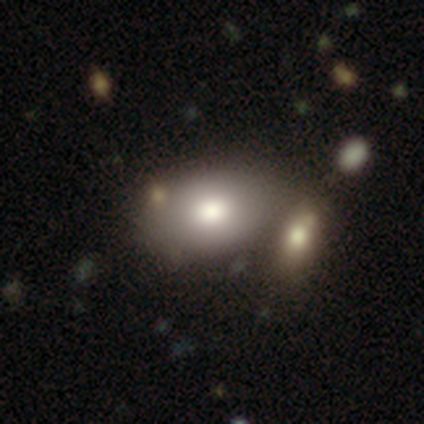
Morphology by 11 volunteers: Smooth or featured?
  - smooth: 91% *
  - star or artifact: 9%
  - featured or disk: 0%
How rounded?
  - in between: 100% *
  - round: 0%
  - cigar-shaped: 0%
Merging?
  - none: 60% *
  - merger: 20%
  - minor disturbance: 10%
  - major disturbance: 10%